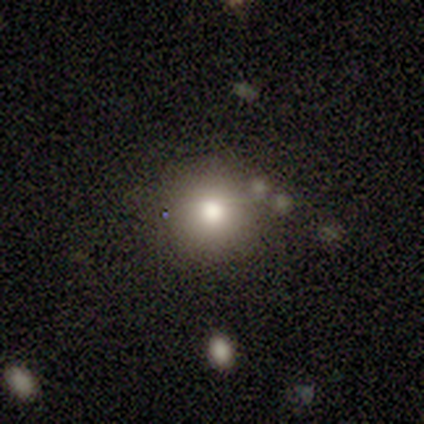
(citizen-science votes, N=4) This appears to be a smooth galaxy with no disk features (100%) that is round (100%). Merging: none (100%).